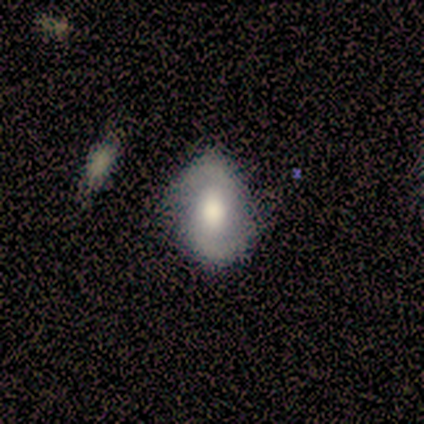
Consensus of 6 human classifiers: smooth_or_featured: featured or disk (p=0.67) [alt: smooth p=0.17]
disk_edge_on: no (p=1.00)
bar: weak (p=0.50) [alt: strong p=0.25]
has_spiral_arms: yes (p=1.00)
spiral_winding: loose (p=0.75) [alt: tight p=0.25]
spiral_arm_count: 2 (p=0.75) [alt: can't tell p=0.25]
bulge_size: large (p=0.75) [alt: moderate p=0.25]
merging: none (p=0.80) [alt: major disturbance p=0.20]